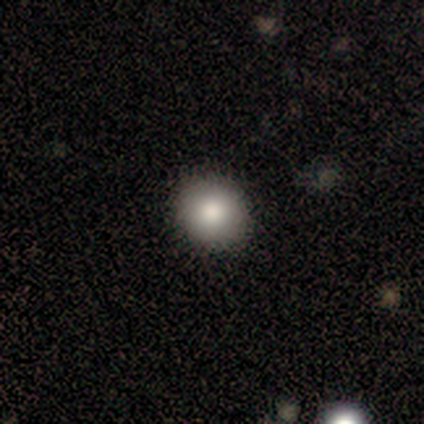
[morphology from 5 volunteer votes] This is clearly a smooth galaxy (80%). How rounded: clearly round (100%). Merging: likely none (75%).